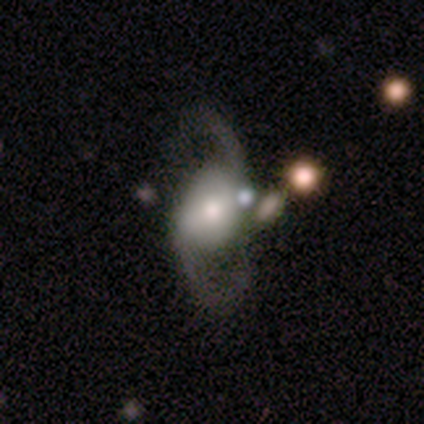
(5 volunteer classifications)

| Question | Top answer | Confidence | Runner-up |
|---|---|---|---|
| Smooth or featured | featured or disk | 100% | — |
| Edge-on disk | no | 100% | — |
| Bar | strong | 60% | no (40%) |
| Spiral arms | yes | 100% | — |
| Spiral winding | medium | 60% | loose (40%) |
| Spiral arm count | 2 | 100% | — |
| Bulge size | moderate | 40% | tied: small (40%) |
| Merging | minor disturbance | 40% | tied: merger (40%) |